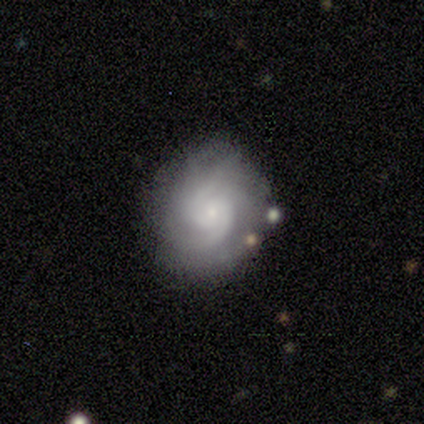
Smooth or featured? 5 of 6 (83%) said featured or disk. Edge-on disk? 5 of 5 (100%) said no. Bar? 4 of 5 (80%) said no. Spiral arms? 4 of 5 (80%) said yes. Spiral winding? 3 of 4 (75%) said tight. Spiral arm count? 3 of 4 (75%) said 2. Bulge size? 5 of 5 (100%) said small. Merging? 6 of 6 (100%) said none.